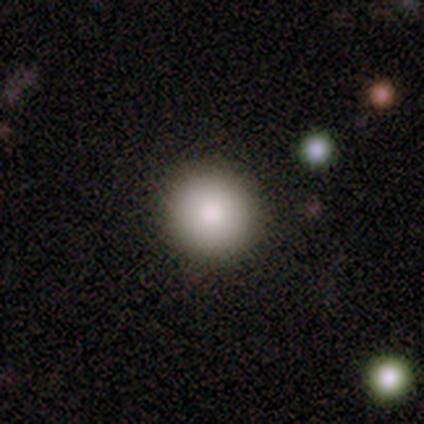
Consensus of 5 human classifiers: Overall: smooth (60%; star or artifact 40%). How rounded: round (100%). Merging: none (100%).